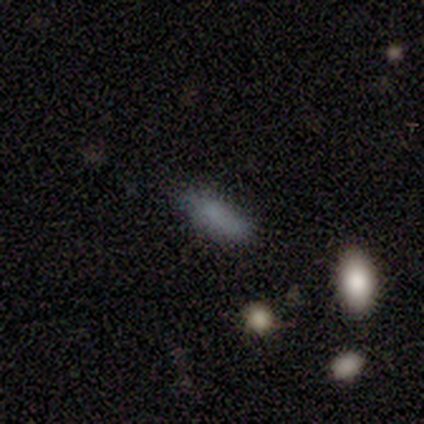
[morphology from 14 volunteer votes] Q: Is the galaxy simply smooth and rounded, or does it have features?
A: smooth — 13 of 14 (93%).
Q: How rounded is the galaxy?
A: in between — 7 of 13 (54%).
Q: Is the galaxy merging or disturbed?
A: none — 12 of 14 (86%).